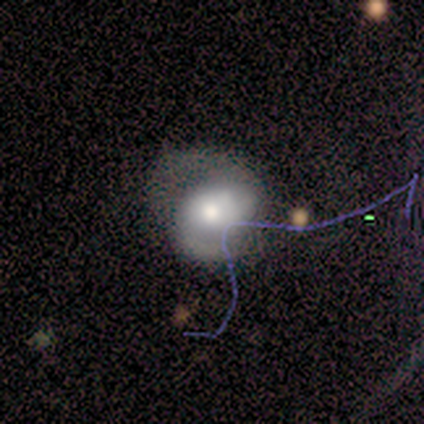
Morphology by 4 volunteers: type=smooth (75%); roundness=in between (67%); merging=major disturbance (100%).